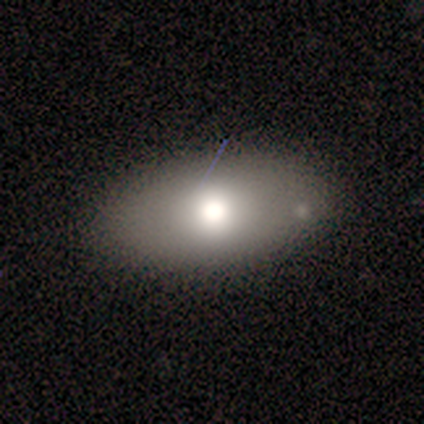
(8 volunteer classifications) Q: Smooth or featured?
A: smooth (50%); runner-up: star or artifact (38%)
Q: How rounded?
A: in between (100%)
Q: Merging?
A: none (100%)